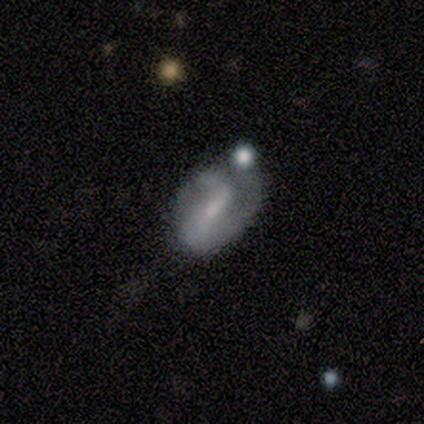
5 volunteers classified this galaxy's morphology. type=featured or disk (80%); edge-on=no (100%); bar=strong (50%, tied with weak); spiral arms=yes (75%); winding=tight (33%, tied with medium and loose); arm count=1 (67%); bulge=moderate (50%, tied with small); merging=major disturbance (40%).